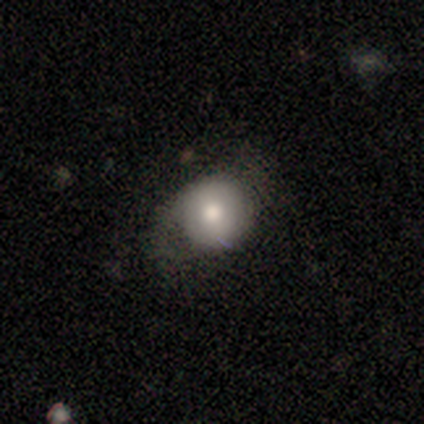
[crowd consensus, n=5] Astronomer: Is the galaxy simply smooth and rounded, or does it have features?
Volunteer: smooth — 60%.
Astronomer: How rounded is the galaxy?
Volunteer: round — 100%.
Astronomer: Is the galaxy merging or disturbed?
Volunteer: none — 75%.